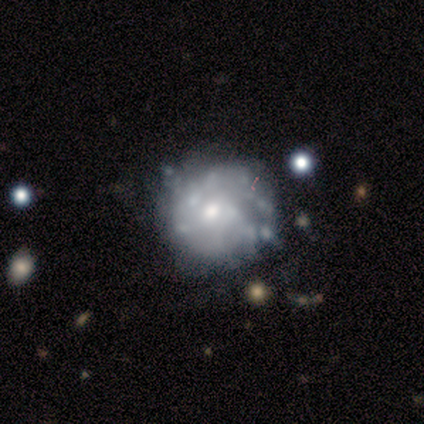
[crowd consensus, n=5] Smooth or featured? 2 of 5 (40%, tied with star or artifact) said featured or disk. Edge-on disk? 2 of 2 (100%) said no. Bar? 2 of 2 (100%) said no. Spiral arms? 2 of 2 (100%) said no. Bulge size? 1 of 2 (50%, tied with moderate) said large. Merging? 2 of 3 (67%) said none.